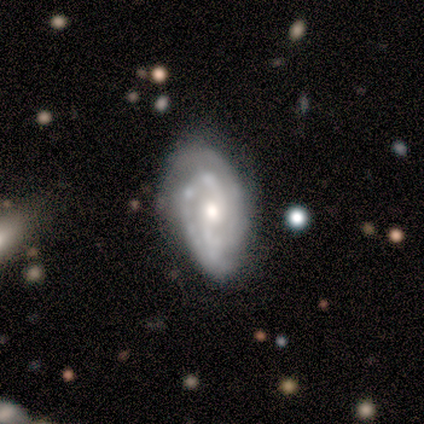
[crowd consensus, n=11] Smooth or featured: featured or disk — 82% (star or artifact — 18%)
Edge-on disk: no — 100%
Bar: no — 67% (weak — 33%)
Spiral arms: yes — 100%
Spiral winding: tight — 56% (medium — 44%)
Spiral arm count: 2 — 78% (3 — 22%)
Bulge size: moderate — 78% (small — 22%)
Merging: minor disturbance — 56% (none — 33%)